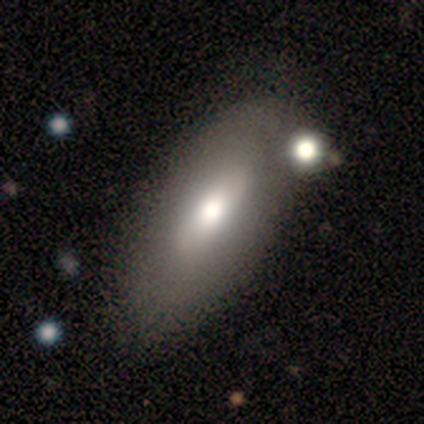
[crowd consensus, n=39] Morphology: type=smooth (69%); roundness=in between (89%); merging=none (51%).